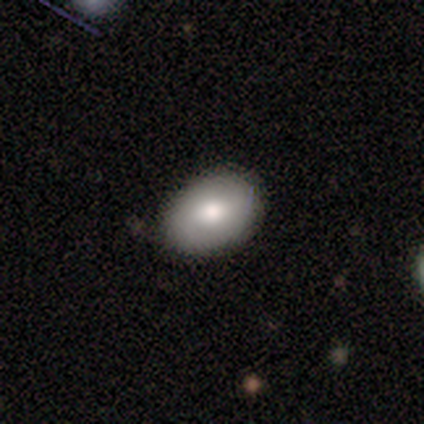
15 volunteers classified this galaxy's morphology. This is likely a smooth galaxy (60%). How rounded: likely in between (78%). Merging: clearly none (86%).